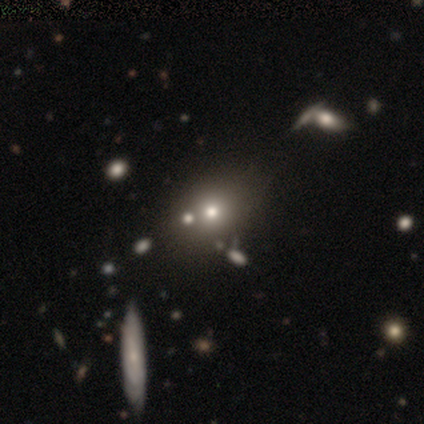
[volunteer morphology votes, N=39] Overall: smooth (67%). How rounded: round (73%). Merging: none (62%).